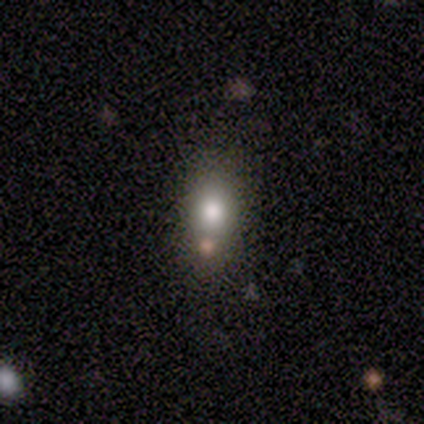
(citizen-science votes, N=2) Smooth or featured: smooth — 100%
How rounded: in between — 100%
Merging: none — 100%